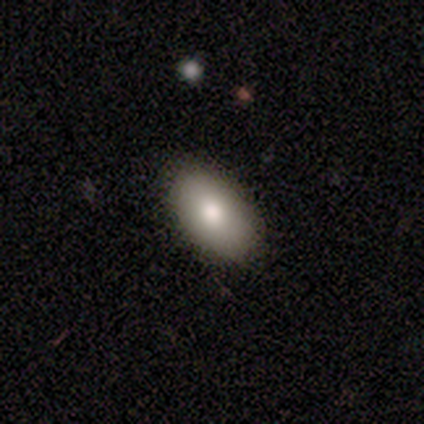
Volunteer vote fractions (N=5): Overall: smooth (100%). How rounded: in between (100%). Merging: none (80%).